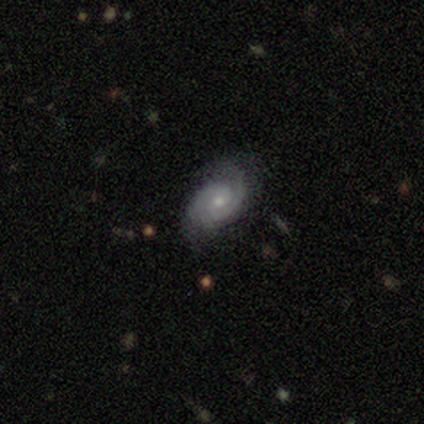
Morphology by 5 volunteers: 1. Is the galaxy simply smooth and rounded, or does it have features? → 100% featured or disk, 0% smooth, 0% star or artifact.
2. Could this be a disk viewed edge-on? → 100% no, 0% yes.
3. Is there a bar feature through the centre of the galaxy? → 80% no, 20% weak, 0% strong.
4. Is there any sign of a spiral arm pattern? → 80% yes, 20% no.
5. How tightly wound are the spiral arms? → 100% tight, 0% medium, 0% loose.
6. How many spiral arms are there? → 50% 2, 25% 3, 25% can't tell, 0% 1, 0% 4, 0% more than 4.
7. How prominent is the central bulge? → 60% small, 40% moderate, 0% dominant, 0% large, 0% none.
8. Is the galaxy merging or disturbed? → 80% none, 20% minor disturbance, 0% major disturbance, 0% merger.